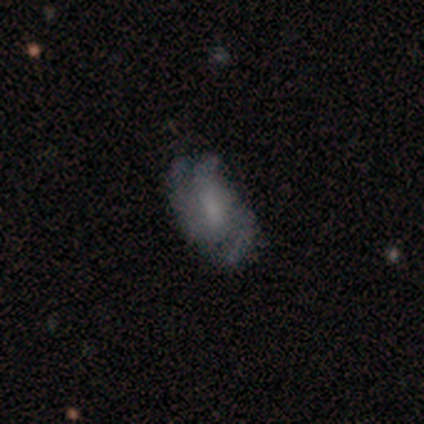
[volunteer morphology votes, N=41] Smooth or featured? 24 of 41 (59%) said featured or disk. Edge-on disk? 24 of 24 (100%) said no. Bar? 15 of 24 (62%) said weak. Spiral arms? 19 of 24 (79%) said yes. Spiral winding? 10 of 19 (53%) said medium. Spiral arm count? 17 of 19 (89%) said 3. Bulge size? 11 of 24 (46%) said none. Merging? 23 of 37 (62%) said none.